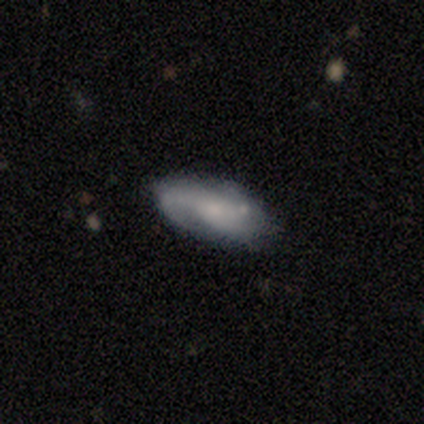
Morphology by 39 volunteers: Smooth or featured? featured or disk (56%)
Edge-on disk? no (100%)
Bar? no (59%)
Spiral arms? yes (91%)
Spiral winding? loose (40%)
Spiral arm count? 2 (30%, tied with can't tell)
Bulge size? small (55%)
Merging? none (69%)